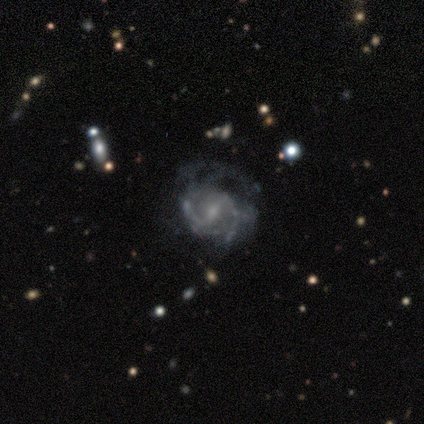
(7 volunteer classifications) This appears to be a featured or disk galaxy (100%) with a strong bar (57%), 2 (57%) medium (57%) spiral arms (100%) and a small central bulge (86%). Merging: none (43%, tied with major disturbance).